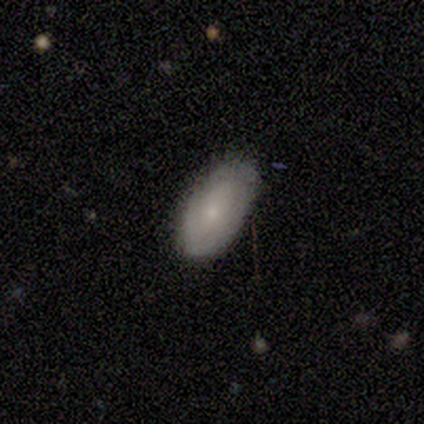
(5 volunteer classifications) smooth 80%, featured or disk 20%, star or artifact 0%. Down the decision tree: how rounded — in between (100%); merging — none (80%).